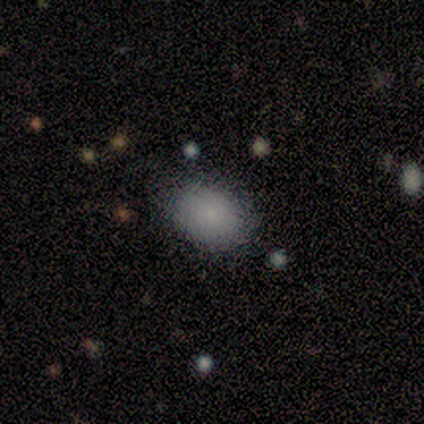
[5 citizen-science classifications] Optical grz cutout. It shows a smooth galaxy with no disk features (100%) that is in between round and cigar-shaped (100%). Merging: none (100%).